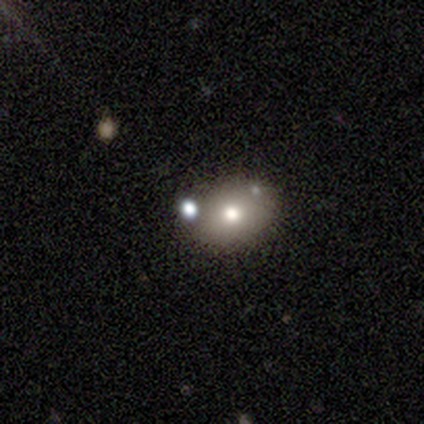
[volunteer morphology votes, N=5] Smooth or featured? smooth (80%)
How rounded? round (75%)
Merging? none (50%)